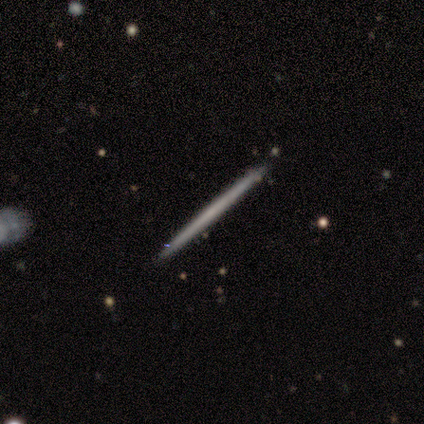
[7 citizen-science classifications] Volunteers were most divided on "smooth or featured": smooth: 57%, featured or disk: 43%, star or artifact: 0%. More confident: how rounded — cigar-shaped (100%); merging — none (86%).